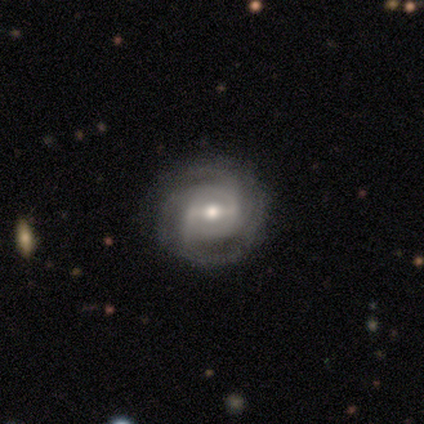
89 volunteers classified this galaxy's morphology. Smooth or featured: featured or disk — 81% (smooth — 13%)
Edge-on disk: no — 96% (yes — 4%)
Bar: strong — 52% (weak — 39%)
Spiral arms: yes — 94% (no — 6%)
Spiral winding: tight — 48% (medium — 35%)
Spiral arm count: 3 — 28% (can't tell — 25%)
Bulge size: moderate — 77% (small — 20%)
Merging: none — 82% (minor disturbance — 13%)